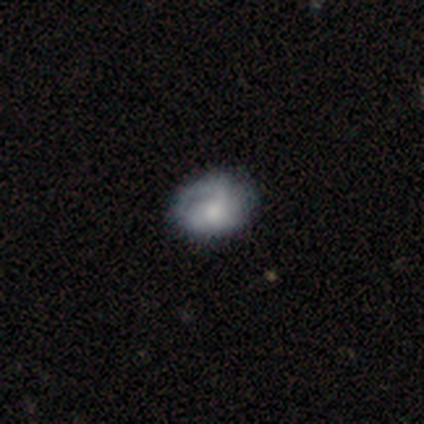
Overall: smooth (67%; featured or disk 31%). How rounded: in between (54%; round 42%). Merging: none (60%; major disturbance 23%).